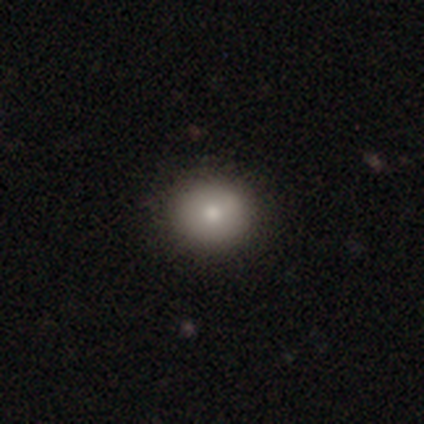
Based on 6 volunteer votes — This is likely a smooth galaxy (67%). How rounded: likely round (75%). Merging: possibly none (50%, tied with minor disturbance).